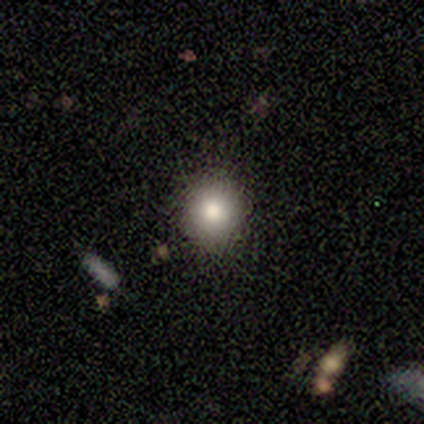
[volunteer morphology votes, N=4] type=smooth (100%); roundness=round (100%); merging=none (100%).